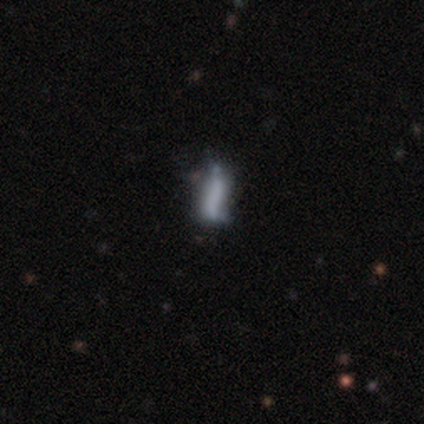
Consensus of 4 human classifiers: smooth-or-featured: featured or disk: 75% | smooth: 25% | star or artifact: 0%
  disk-edge-on: yes: 67% | no: 33%
    edge-on-bulge: boxy: 50% (tied) | none: 50% (tied) | rounded: 0%
  merging: major disturbance: 50% | none: 25% | minor disturbance: 25% | merger: 0%